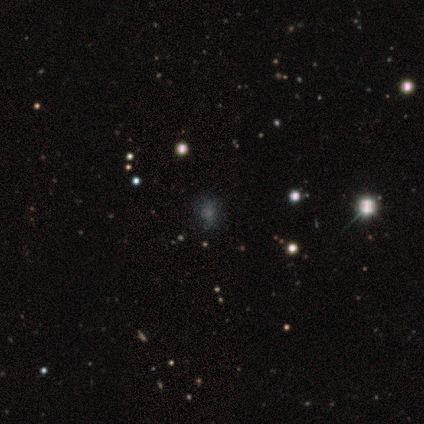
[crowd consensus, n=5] A star or artifact, not a galaxy (60%).